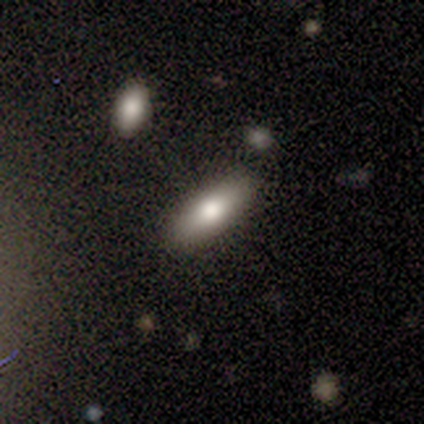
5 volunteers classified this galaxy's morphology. Smooth or featured: smooth — 60% (featured or disk — 40%)
How rounded: in between — 67% (cigar-shaped — 33%)
Merging: none — 60% (minor disturbance — 20%)